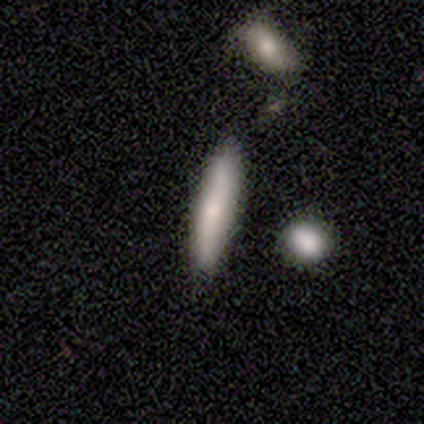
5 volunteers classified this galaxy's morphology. smooth-or-featured: smooth: 80% | star or artifact: 20% | featured or disk: 0%
  how-rounded: cigar-shaped: 75% | in between: 25% | round: 0%
  merging: none: 100% | minor disturbance: 0% | major disturbance: 0% | merger: 0%